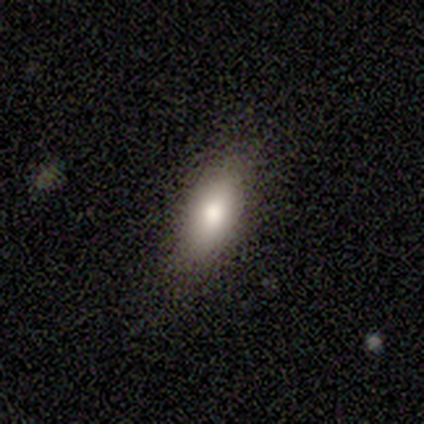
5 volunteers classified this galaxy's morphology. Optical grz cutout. It shows a smooth galaxy with no disk features (80%) that is in between round and cigar-shaped (100%). Merging: none (100%).